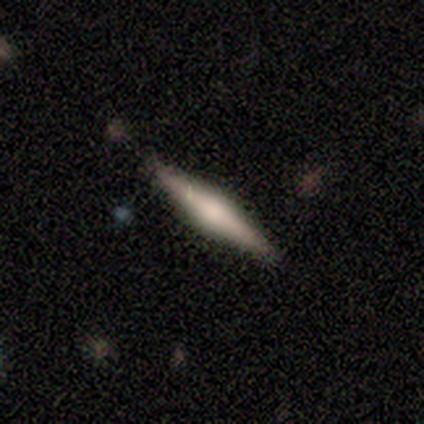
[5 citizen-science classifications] Q: Smooth or featured?
A: featured or disk (80%); runner-up: star or artifact (20%)
Q: Edge-on disk?
A: yes (75%); runner-up: no (25%)
Q: Edge-on bulge?
A: rounded (100%)
Q: Merging?
A: none (100%)